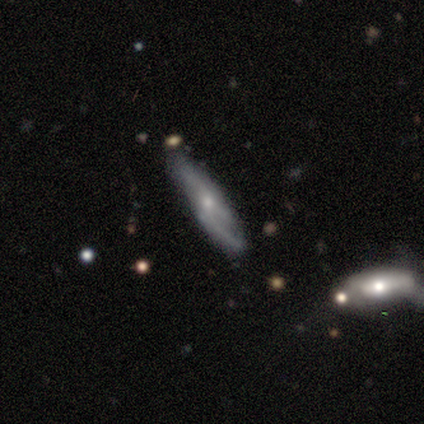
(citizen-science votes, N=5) Smooth or featured? 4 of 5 (80%) said featured or disk. Edge-on disk? 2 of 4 (50%, tied with no) said yes. Edge-on bulge? 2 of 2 (100%) said rounded. Merging? 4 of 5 (80%) said none.